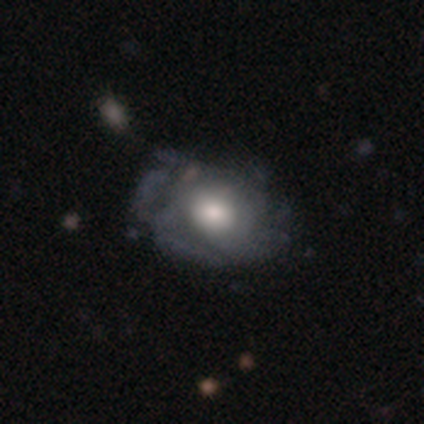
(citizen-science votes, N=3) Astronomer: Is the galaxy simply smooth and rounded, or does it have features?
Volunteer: featured or disk — 67%.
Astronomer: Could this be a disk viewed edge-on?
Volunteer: no — 100%.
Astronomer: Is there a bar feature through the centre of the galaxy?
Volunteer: no — 100%.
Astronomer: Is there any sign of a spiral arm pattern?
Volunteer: no — 100%.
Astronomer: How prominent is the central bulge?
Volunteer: large — 50%, tied with moderate at 50%.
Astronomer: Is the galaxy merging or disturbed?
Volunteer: none — 100%.